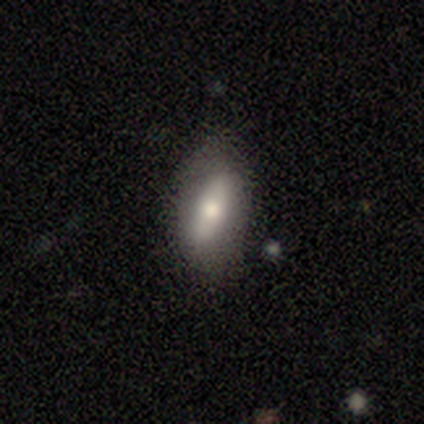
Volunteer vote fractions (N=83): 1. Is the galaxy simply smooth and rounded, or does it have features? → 61% smooth, 28% featured or disk, 11% star or artifact.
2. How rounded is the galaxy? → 86% in between, 12% cigar-shaped, 2% round.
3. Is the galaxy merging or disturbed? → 68% none, 28% minor disturbance, 4% major disturbance, 0% merger.